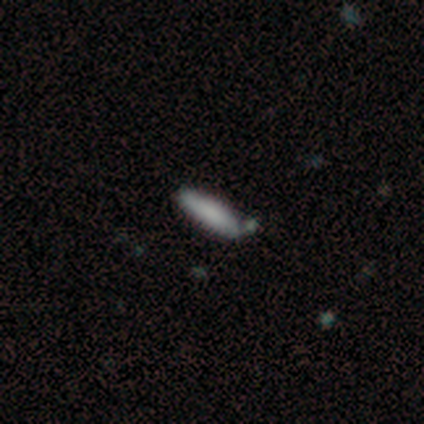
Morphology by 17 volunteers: smooth_or_featured: smooth (p=0.88) [alt: featured or disk p=0.12]
how_rounded: cigar-shaped (p=0.53) [alt: in between p=0.47]
merging: none (p=0.59) [alt: minor disturbance p=0.35]